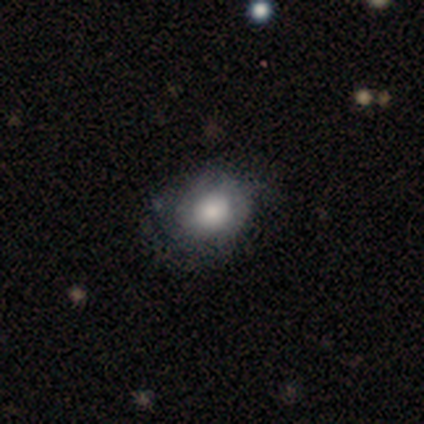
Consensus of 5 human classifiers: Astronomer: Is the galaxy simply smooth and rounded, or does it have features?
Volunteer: smooth — 60% (runner-up: featured or disk, 40%).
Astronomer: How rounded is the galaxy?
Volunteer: round — 67%.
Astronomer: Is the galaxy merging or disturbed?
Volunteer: none — 40%, tied with minor disturbance at 40%.